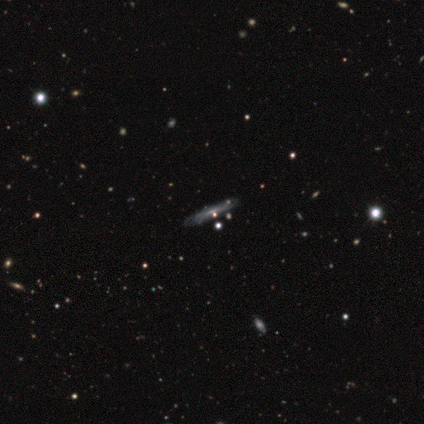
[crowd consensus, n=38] Overall: featured or disk (61%; smooth 34%). Edge-on disk: yes (74%). Edge-on bulge: none (71%). Merging: none (81%).